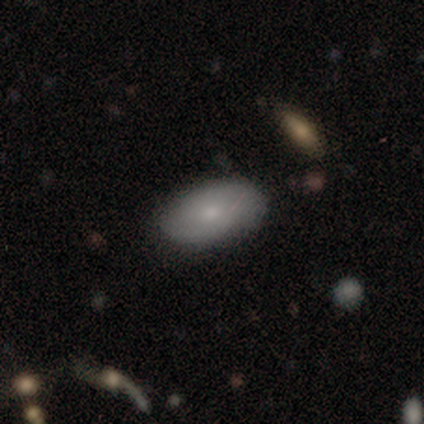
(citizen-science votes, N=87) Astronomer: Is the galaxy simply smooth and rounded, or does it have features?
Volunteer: smooth — 72%.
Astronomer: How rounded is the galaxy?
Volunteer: in between — 95%.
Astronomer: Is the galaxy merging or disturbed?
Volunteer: none — 84%.